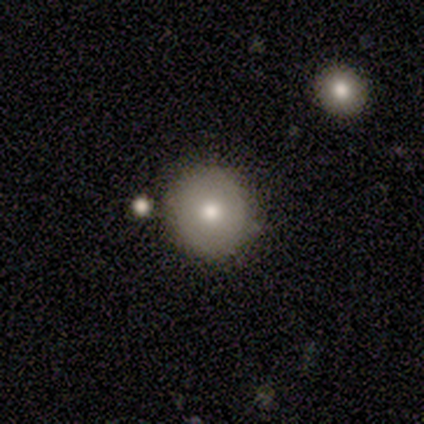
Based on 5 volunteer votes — Consensus on every question: smooth or featured — smooth (100%); how rounded — round (100%); merging — none (100%).